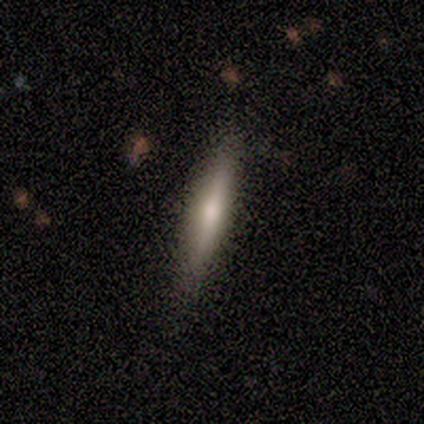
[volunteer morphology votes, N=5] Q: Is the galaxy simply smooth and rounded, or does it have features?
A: smooth — 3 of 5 (60%).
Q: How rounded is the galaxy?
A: cigar-shaped — 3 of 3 (100%).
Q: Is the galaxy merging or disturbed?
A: none — 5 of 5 (100%).